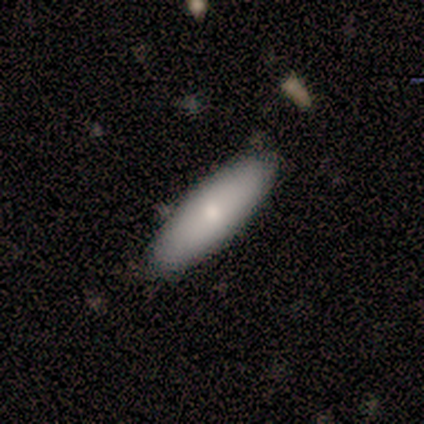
Morphology: type=smooth (100%); roundness=cigar-shaped (57%); merging=none (100%).